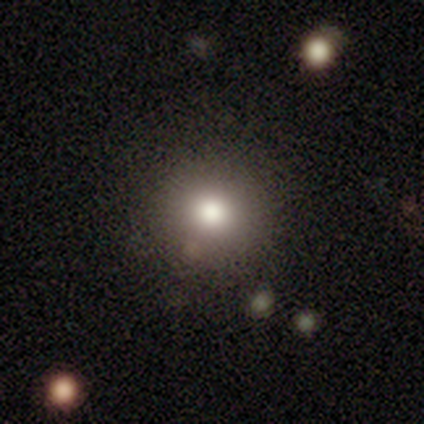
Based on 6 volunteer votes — Smooth or featured? 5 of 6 (83%) said smooth. How rounded? 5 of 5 (100%) said round. Merging? 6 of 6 (100%) said none.